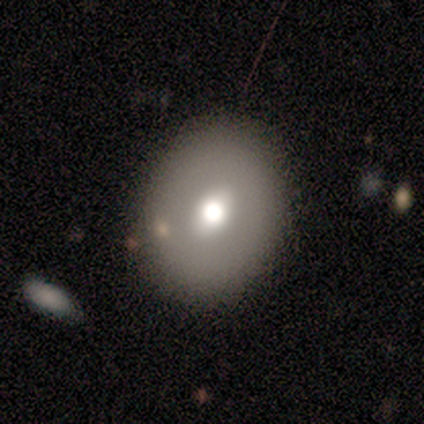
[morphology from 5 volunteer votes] Volunteers were most divided on "smooth or featured": featured or disk: 60%, smooth: 40%, star or artifact: 0%. More confident: edge-on disk — no (100%); spiral arms — no (100%); merging — none (100%); bar — weak (67%); bulge size — large (67%).